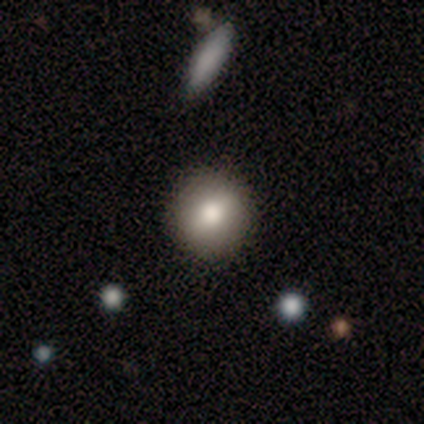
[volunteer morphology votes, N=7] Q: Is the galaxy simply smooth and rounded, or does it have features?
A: smooth — 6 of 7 (86%).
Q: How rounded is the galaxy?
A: round — 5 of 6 (83%).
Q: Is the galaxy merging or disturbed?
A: none — 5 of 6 (83%).